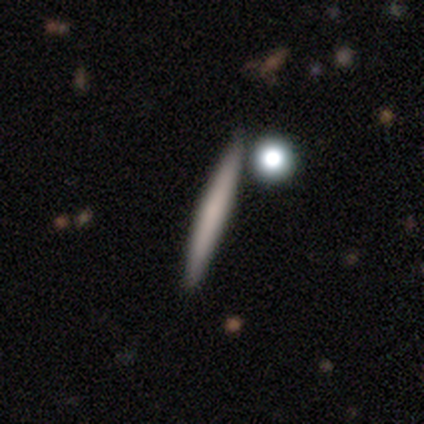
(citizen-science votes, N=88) Q: Smooth or featured?
A: smooth (64%); runner-up: featured or disk (32%)
Q: How rounded?
A: cigar-shaped (98%); runner-up: in between (2%)
Q: Merging?
A: none (87%); runner-up: minor disturbance (6%)